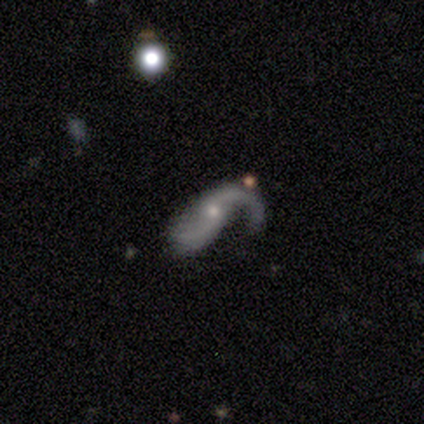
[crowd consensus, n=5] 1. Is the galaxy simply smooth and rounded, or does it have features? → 80% featured or disk, 20% star or artifact, 0% smooth.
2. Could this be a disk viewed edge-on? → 100% no, 0% yes.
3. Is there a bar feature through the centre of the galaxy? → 75% no, 25% strong, 0% weak.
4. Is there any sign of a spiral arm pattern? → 100% yes, 0% no.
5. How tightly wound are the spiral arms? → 75% loose, 25% medium, 0% tight.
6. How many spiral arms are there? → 75% 2, 25% 1, 0% 3, 0% 4, 0% more than 4, 0% can't tell.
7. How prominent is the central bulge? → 75% small, 25% moderate, 0% dominant, 0% large, 0% none.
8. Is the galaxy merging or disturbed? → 50% none, 25% minor disturbance, 25% major disturbance, 0% merger.